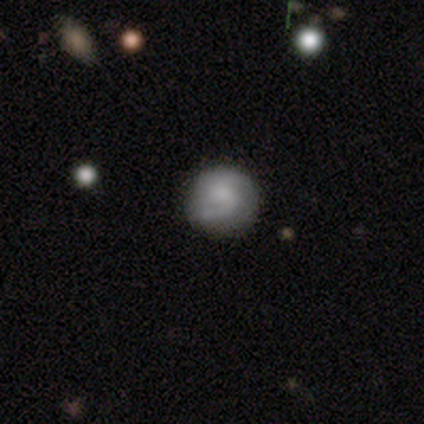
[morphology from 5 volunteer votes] Smooth or featured? 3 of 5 (60%) said featured or disk. Edge-on disk? 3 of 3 (100%) said no. Bar? 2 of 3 (67%) said no. Spiral arms? 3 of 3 (100%) said yes. Spiral winding? 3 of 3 (100%) said medium. Spiral arm count? 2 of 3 (67%) said 2. Bulge size? 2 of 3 (67%) said small. Merging? 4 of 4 (100%) said none.